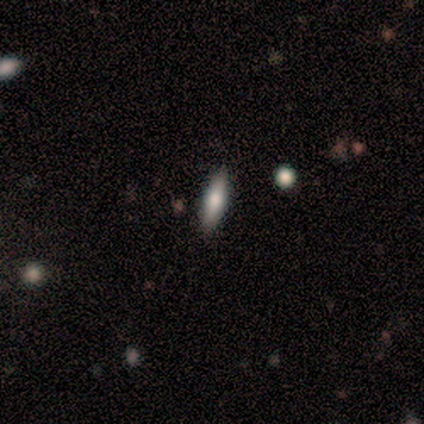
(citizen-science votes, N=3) A featured or disk galaxy (67%) viewed edge-on (100%) with no central bulge (50%, tied with rounded).

Vote fractions:
- Smooth or featured? featured or disk: 67% / smooth: 33% / star or artifact: 0%
- Edge-on disk? yes: 100% / no: 0%
- Edge-on bulge? none: 50% (tied) / rounded: 50% (tied) / boxy: 0%
- Merging? none: 67% / major disturbance: 33% / minor disturbance: 0% / merger: 0%